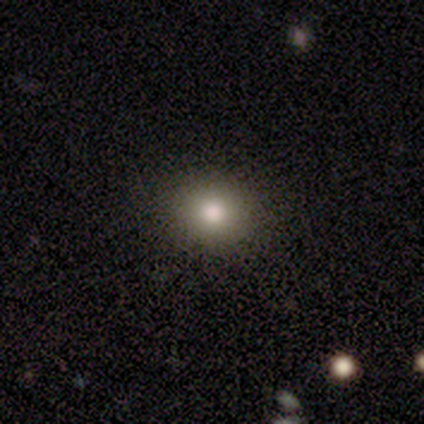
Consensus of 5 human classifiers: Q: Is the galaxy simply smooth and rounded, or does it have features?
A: smooth — 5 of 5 (100%).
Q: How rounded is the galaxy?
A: round — 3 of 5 (60%).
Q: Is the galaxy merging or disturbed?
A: none — 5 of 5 (100%).